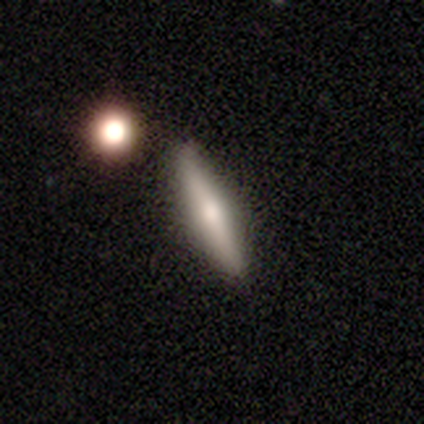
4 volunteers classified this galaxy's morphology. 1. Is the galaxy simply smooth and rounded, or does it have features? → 75% featured or disk, 25% smooth, 0% star or artifact.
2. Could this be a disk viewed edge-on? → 100% yes, 0% no.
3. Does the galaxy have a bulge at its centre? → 67% rounded, 33% none, 0% boxy.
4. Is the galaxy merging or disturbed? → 100% none, 0% minor disturbance, 0% major disturbance, 0% merger.